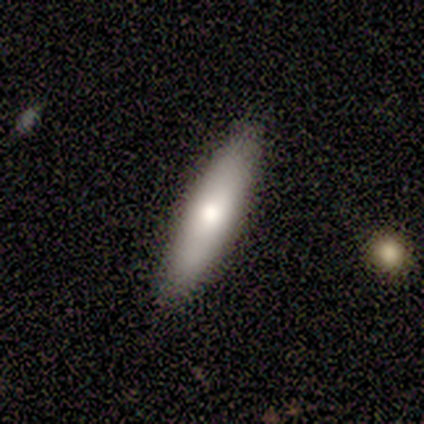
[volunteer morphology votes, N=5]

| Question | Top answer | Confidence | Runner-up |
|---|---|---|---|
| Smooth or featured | smooth | 80% | featured or disk (20%) |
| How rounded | cigar-shaped | 100% | — |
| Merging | none | 100% | — |